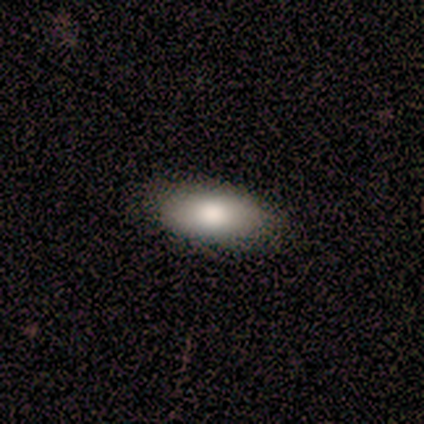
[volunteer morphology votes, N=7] Smooth or featured?
  - smooth: 86% *
  - star or artifact: 14%
  - featured or disk: 0%
How rounded?
  - in between: 83% *
  - cigar-shaped: 17%
  - round: 0%
Merging?
  - none: 67% *
  - minor disturbance: 33%
  - major disturbance: 0%
  - merger: 0%